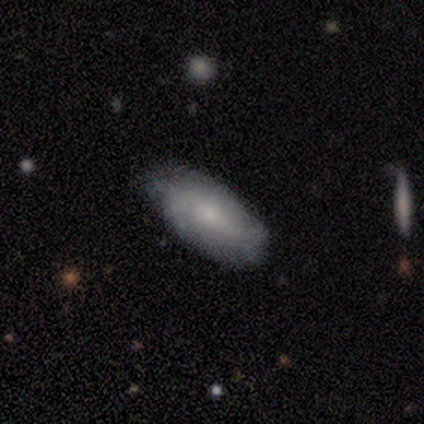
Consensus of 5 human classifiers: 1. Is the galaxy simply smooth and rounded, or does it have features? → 60% smooth, 40% featured or disk, 0% star or artifact.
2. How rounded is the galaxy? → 67% in between, 33% cigar-shaped, 0% round.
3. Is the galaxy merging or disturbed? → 80% none, 20% minor disturbance, 0% major disturbance, 0% merger.